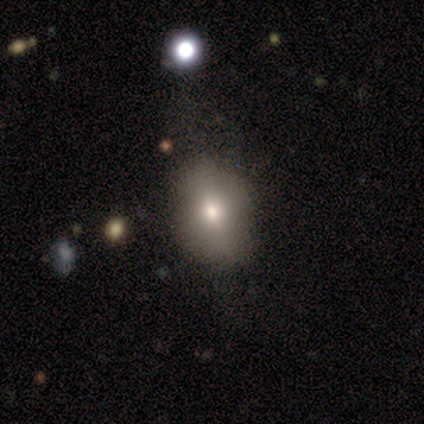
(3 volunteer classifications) A smooth galaxy with no disk features (67%) that is round (50%, tied with in between). Merging: none (100%).